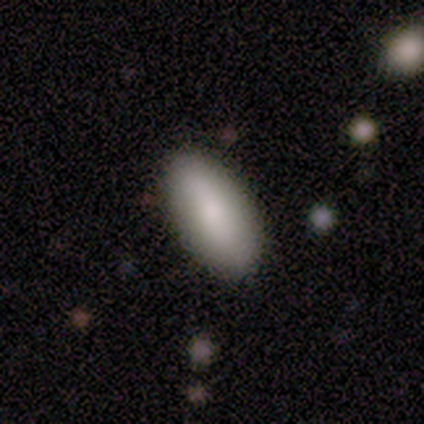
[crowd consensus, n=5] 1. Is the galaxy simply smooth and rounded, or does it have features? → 100% smooth, 0% featured or disk, 0% star or artifact.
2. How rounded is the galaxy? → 100% in between, 0% round, 0% cigar-shaped.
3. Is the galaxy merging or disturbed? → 100% none, 0% minor disturbance, 0% major disturbance, 0% merger.